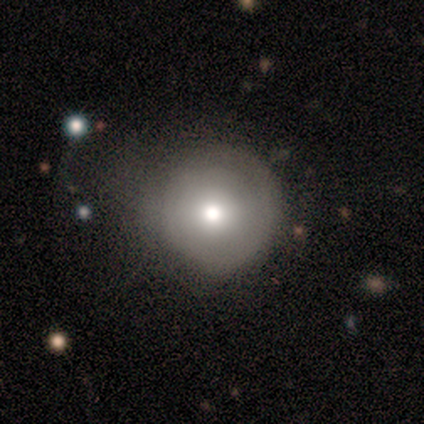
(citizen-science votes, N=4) featured or disk 75%, smooth 25%, star or artifact 0%. Down the decision tree: edge-on disk — no (100%); bar — no (100%); spiral arms — no (100%); bulge size — moderate (67%); merging — minor disturbance (75%).